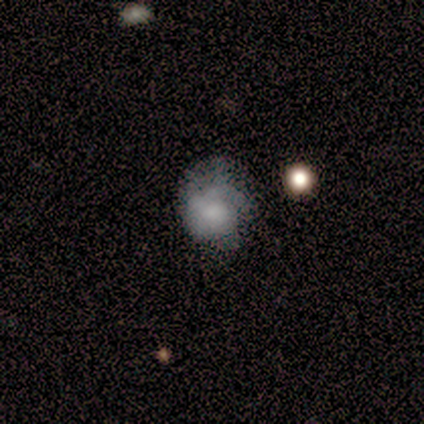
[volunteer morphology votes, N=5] smooth-or-featured: featured or disk: 80% | smooth: 20% | star or artifact: 0%
  disk-edge-on: no: 100% | yes: 0%
    bar: weak: 50% (tied) | no: 50% (tied) | strong: 0%
    has-spiral-arms: no: 75% | yes: 25%
    bulge-size: dominant: 25% (tied) | large: 25% (tied) | moderate: 25% (tied) | small: 25% (tied) | none: 0%
  merging: none: 60% | major disturbance: 40% | minor disturbance: 0% | merger: 0%